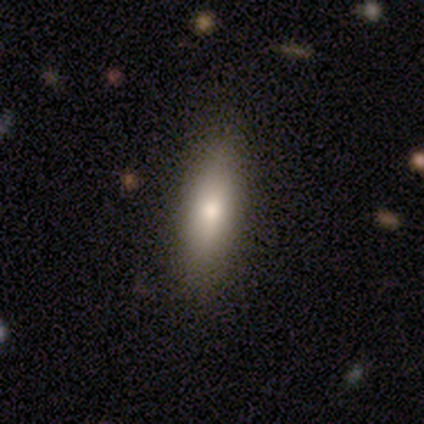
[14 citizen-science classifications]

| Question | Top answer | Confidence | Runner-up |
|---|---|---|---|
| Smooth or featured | smooth | 86% | featured or disk (14%) |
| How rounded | cigar-shaped | 58% | in between (42%) |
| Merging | none | 93% | minor disturbance (7%) |